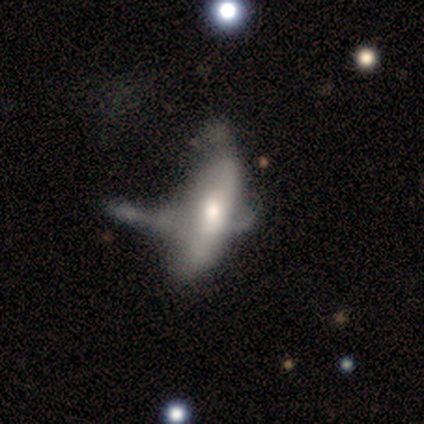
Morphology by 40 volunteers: Smooth or featured: smooth — 52% (featured or disk — 45%)
How rounded: in between — 76% (cigar-shaped — 24%)
Merging: major disturbance — 49% (merger — 23%)